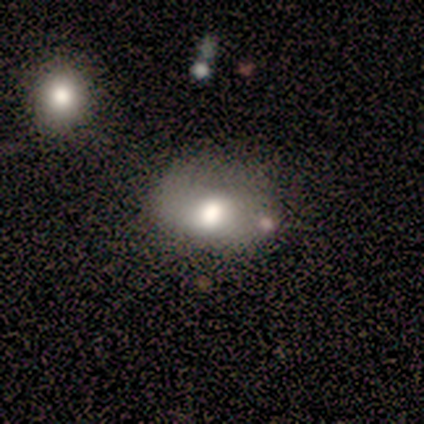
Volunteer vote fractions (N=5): smooth 60%, featured or disk 20%, star or artifact 20%. Down the decision tree: how rounded — in between (67%); merging — none (50%).